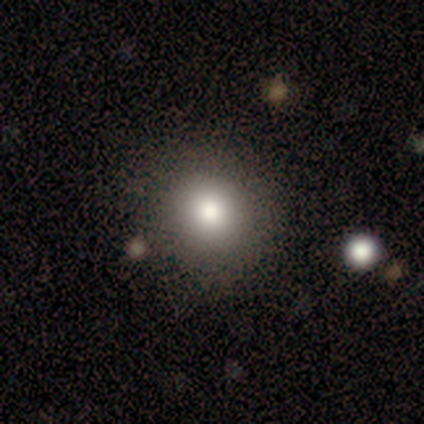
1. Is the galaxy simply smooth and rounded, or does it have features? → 80% smooth, 12% featured or disk, 8% star or artifact.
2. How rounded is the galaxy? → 100% round, 0% in between, 0% cigar-shaped.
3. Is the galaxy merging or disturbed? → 81% none, 14% minor disturbance, 5% major disturbance, 0% merger.